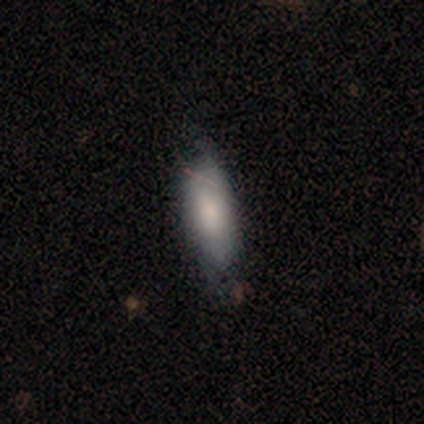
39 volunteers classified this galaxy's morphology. Smooth or featured: smooth — 90% (featured or disk — 10%)
How rounded: in between — 69% (cigar-shaped — 26%)
Merging: none — 67% (minor disturbance — 23%)